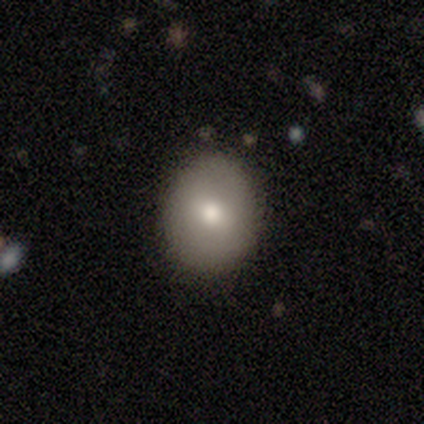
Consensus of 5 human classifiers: smooth_or_featured: smooth (p=1.00)
how_rounded: round (p=1.00)
merging: none (p=1.00)